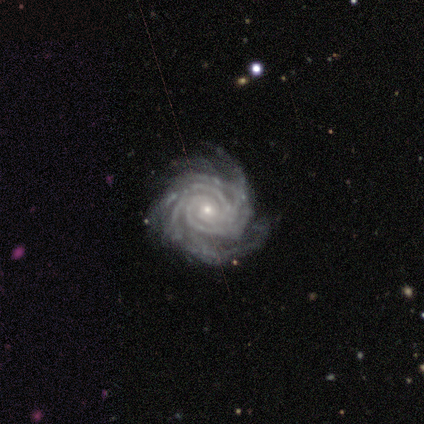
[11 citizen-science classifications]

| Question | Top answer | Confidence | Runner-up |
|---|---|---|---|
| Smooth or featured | featured or disk | 100% | — |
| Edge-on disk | no | 100% | — |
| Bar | no | 64% | strong (27%) |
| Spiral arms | yes | 100% | — |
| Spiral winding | tight | 100% | — |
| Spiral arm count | more than 4 | 45% | 4 (27%) |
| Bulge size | small | 64% | moderate (36%) |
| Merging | none | 82% | minor disturbance (18%) |